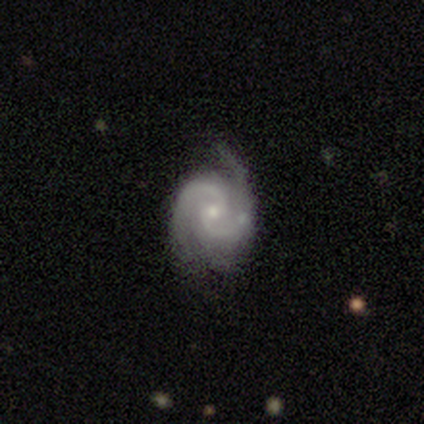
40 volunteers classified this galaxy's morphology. Volunteers were most divided on "merging": none: 44%, minor disturbance: 23%, major disturbance: 5%, merger: 0%. More confident: spiral arms — yes (100%); smooth or featured — featured or disk (98%); edge-on disk — no (97%); spiral arm count — 2 (82%); bulge size — small (68%); bar — no (63%); spiral winding — medium (63%).